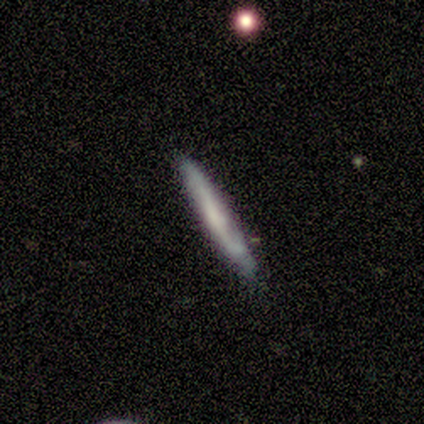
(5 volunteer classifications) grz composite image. It shows a featured or disk galaxy (80%) viewed edge-on (75%) with no central bulge (100%). Merging: none (80%).